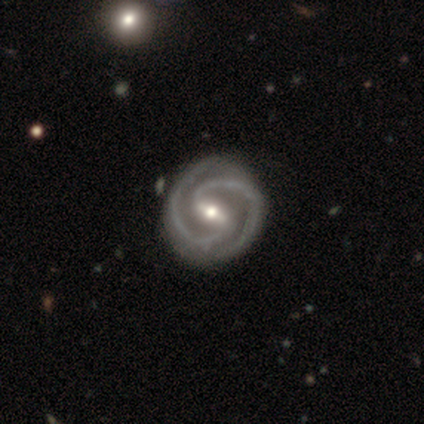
Volunteers were most divided on "bulge size": moderate: 56%, small: 38%, large: 6%, dominant: 0%, none: 0%. More confident: spiral arms — yes (100%); spiral arm count — 2 (100%); smooth or featured — featured or disk (95%); edge-on disk — no (89%); bar — strong (74%); merging — none (64%); spiral winding — tight (62%).